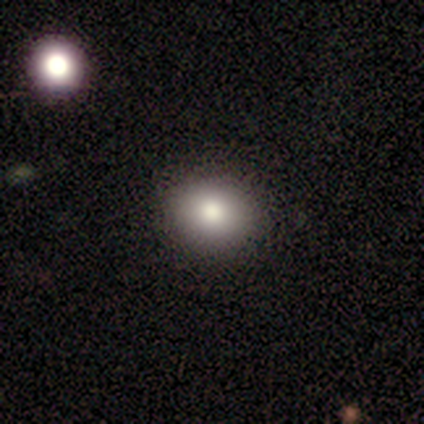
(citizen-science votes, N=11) smooth_or_featured: smooth (p=0.91) [alt: featured or disk p=0.09]
how_rounded: round (p=0.70) [alt: in between p=0.30]
merging: none (p=0.82) [alt: minor disturbance p=0.09]